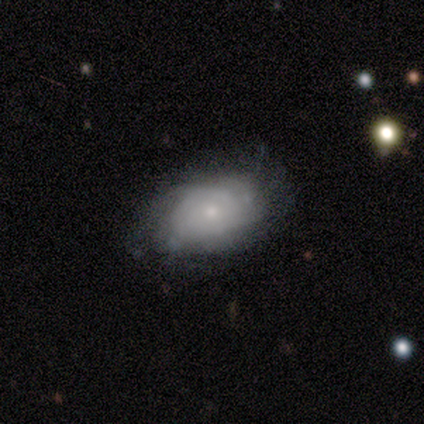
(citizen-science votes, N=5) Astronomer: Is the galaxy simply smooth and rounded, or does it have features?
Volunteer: smooth — 60% (runner-up: featured or disk, 40%).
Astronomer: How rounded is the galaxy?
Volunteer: in between — 100%.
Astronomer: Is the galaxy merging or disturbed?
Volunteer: minor disturbance — 40% (runner-up: none, 20%).